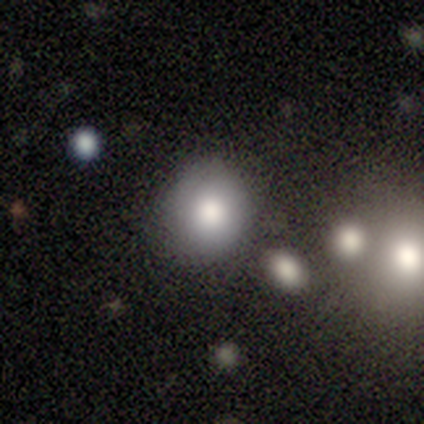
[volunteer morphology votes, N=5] Smooth or featured?
  - smooth: 80% *
  - star or artifact: 20%
  - featured or disk: 0%
How rounded?
  - round: 75% *
  - in between: 25%
  - cigar-shaped: 0%
Merging?
  - minor disturbance: 50% *
  - none: 25%
  - major disturbance: 25%
  - merger: 0%